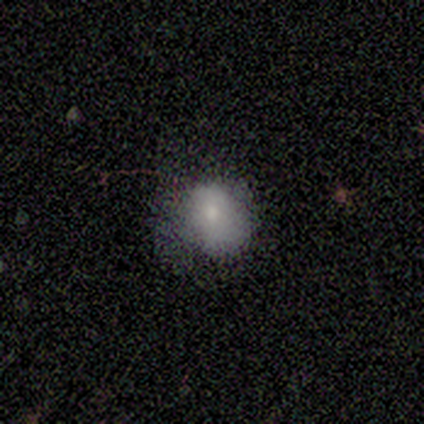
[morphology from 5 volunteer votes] smooth_or_featured: smooth (p=1.00)
how_rounded: round (p=0.80) [alt: in between p=0.20]
merging: minor disturbance (p=0.40) [tied with: major disturbance p=0.40]